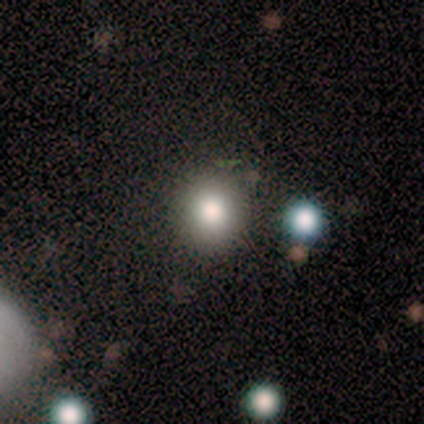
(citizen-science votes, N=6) Overall: smooth (67%). How rounded: round (100%). Merging: none (100%).